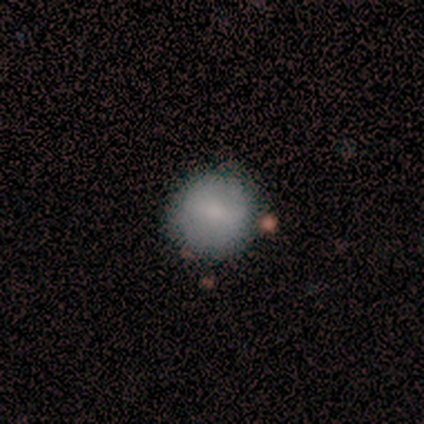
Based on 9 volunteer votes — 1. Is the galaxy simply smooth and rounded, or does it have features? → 78% smooth, 22% star or artifact, 0% featured or disk.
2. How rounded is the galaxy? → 100% round, 0% in between, 0% cigar-shaped.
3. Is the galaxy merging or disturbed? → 100% none, 0% minor disturbance, 0% major disturbance, 0% merger.